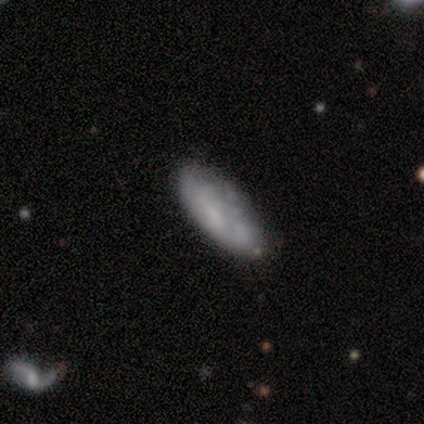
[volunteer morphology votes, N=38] This appears to be a smooth galaxy with no disk features (50%) that is in between round and cigar-shaped (53%). Merging: none (72%).